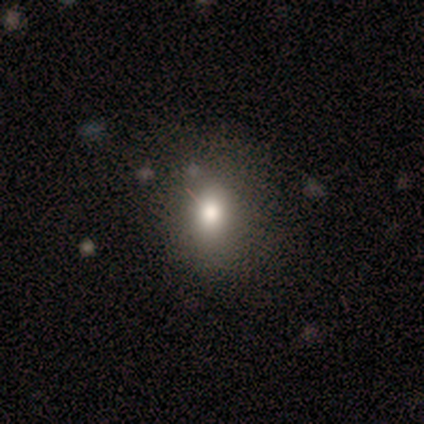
Smooth or featured? 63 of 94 (67%) said smooth. How rounded? 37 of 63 (59%) said round. Merging? 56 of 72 (78%) said none.